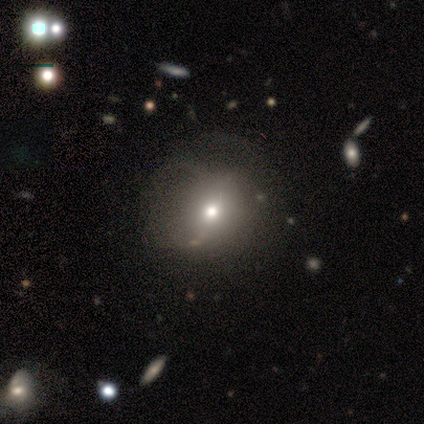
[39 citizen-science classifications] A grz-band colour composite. It shows a smooth galaxy with no disk features (64%) that is round (76%). Merging: none (38%).